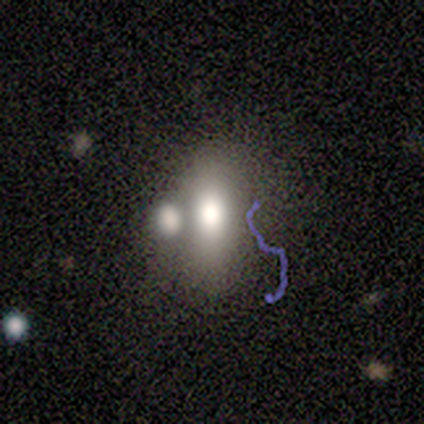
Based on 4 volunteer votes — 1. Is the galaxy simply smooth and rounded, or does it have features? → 50% star or artifact, 25% smooth, 25% featured or disk.